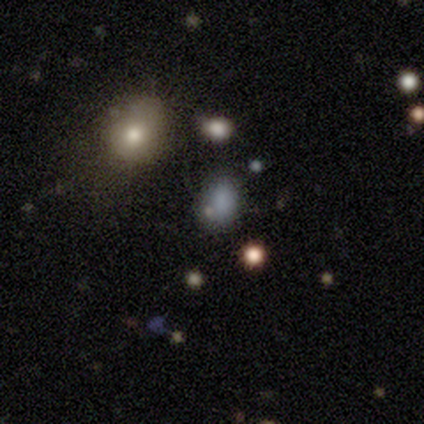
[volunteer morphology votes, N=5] A smooth galaxy with no disk features (60%) that is in between round and cigar-shaped (67%).

Vote fractions:
- Smooth or featured? smooth: 60% / star or artifact: 40% / featured or disk: 0%
- How rounded? in between: 67% / round: 33% / cigar-shaped: 0%
- Merging? none: 67% / minor disturbance: 33% / major disturbance: 0% / merger: 0%